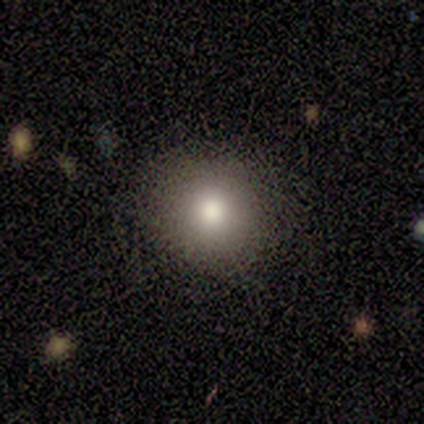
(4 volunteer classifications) This appears to be a smooth galaxy with no disk features (100%) that is round (100%). Merging: none (100%).